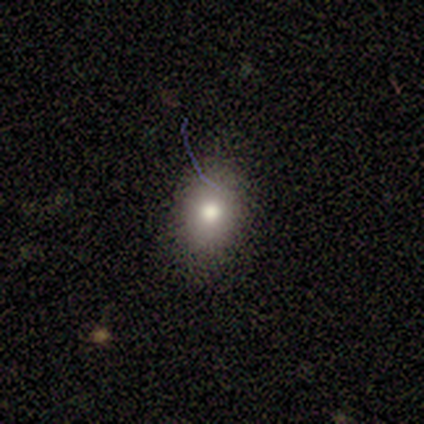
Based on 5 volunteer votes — smooth_or_featured: smooth (p=0.60) [alt: featured or disk p=0.20]
how_rounded: in between (p=1.00)
merging: none (p=0.50) [tied with: minor disturbance p=0.50]